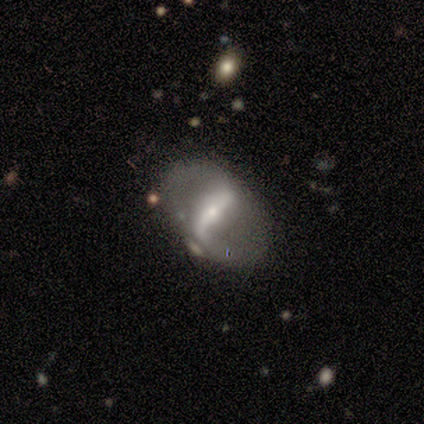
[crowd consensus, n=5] Volunteers were most divided on "smooth or featured": featured or disk: 60%, smooth: 40%, star or artifact: 0%. More confident: edge-on disk — no (100%); bar — weak (67%); spiral arms — no (67%); bulge size — moderate (67%); merging — none (60%).